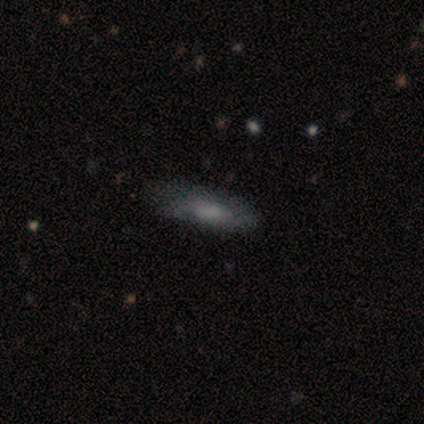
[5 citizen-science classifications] smooth 60%, featured or disk 40%, star or artifact 0%. Down the decision tree: how rounded — in between (67%); merging — none (40%, tied with minor disturbance).